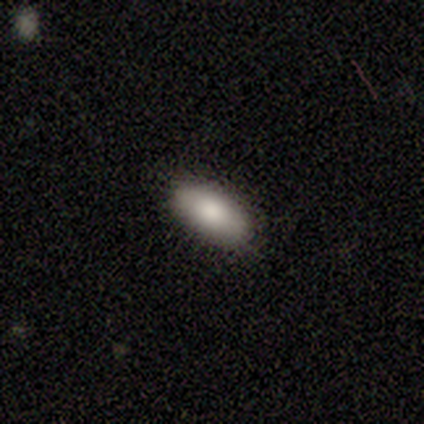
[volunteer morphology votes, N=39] A smooth galaxy with no disk features (85%) that is in between round and cigar-shaped (94%). Merging: none (89%).